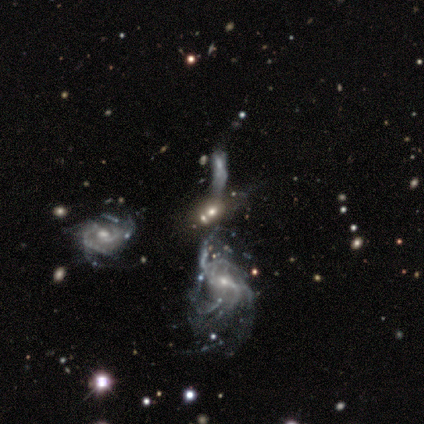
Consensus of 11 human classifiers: smooth-or-featured: featured or disk: 64% | smooth: 18% | star or artifact: 18%
  disk-edge-on: no: 86% | yes: 14%
    bar: weak: 67% | no: 33% | strong: 0%
    has-spiral-arms: yes: 83% | no: 17%
      spiral-winding: medium: 40% (tied) | loose: 40% (tied) | tight: 20%
      spiral-arm-count: can't tell: 60% | 2: 20% | 3: 20% | 1: 0% | 4: 0% | more than 4: 0%
    bulge-size: moderate: 50% (tied) | small: 50% (tied) | dominant: 0% | large: 0% | none: 0%
  merging: none: 33% (tied) | merger: 33% (tied) | major disturbance: 22% | minor disturbance: 11%